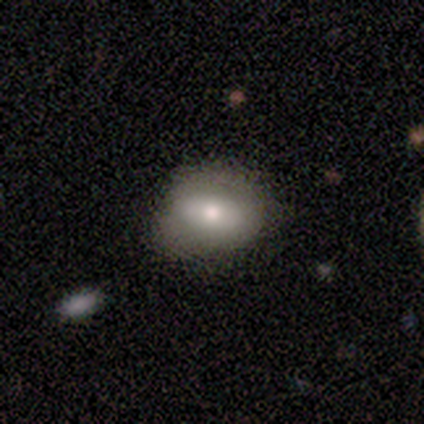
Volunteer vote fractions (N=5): A smooth galaxy with no disk features (80%) that is in between round and cigar-shaped (100%). Merging: none (60%).